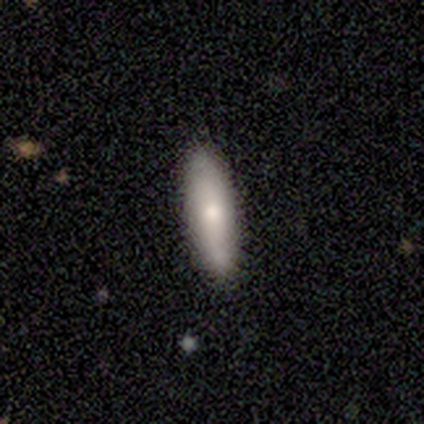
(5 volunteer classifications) Q: Smooth or featured?
A: smooth (60%); runner-up: featured or disk (40%)
Q: How rounded?
A: cigar-shaped (100%)
Q: Merging?
A: none (100%)